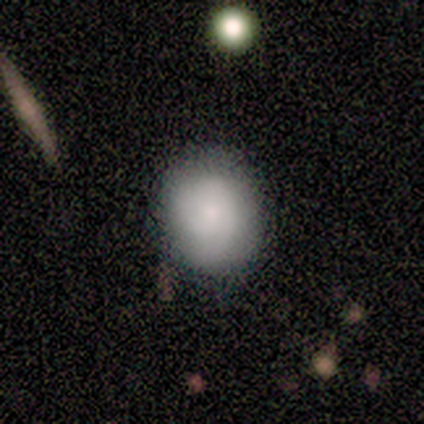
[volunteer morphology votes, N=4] Smooth or featured?
  - smooth: 50% * (tied)
  - featured or disk: 50% * (tied)
  - star or artifact: 0%
How rounded?
  - in between: 100% *
  - round: 0%
  - cigar-shaped: 0%
Merging?
  - none: 100% *
  - minor disturbance: 0%
  - major disturbance: 0%
  - merger: 0%